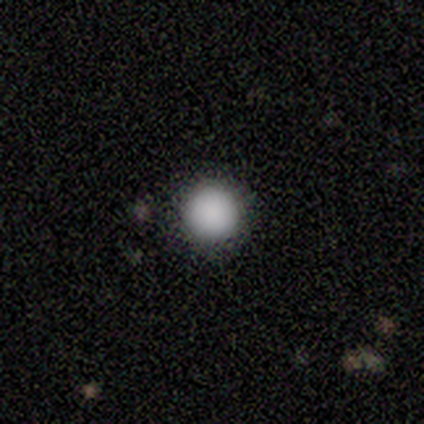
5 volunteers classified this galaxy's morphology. smooth 80%, featured or disk 20%, star or artifact 0%. Down the decision tree: how rounded — round (100%); merging — none (100%).